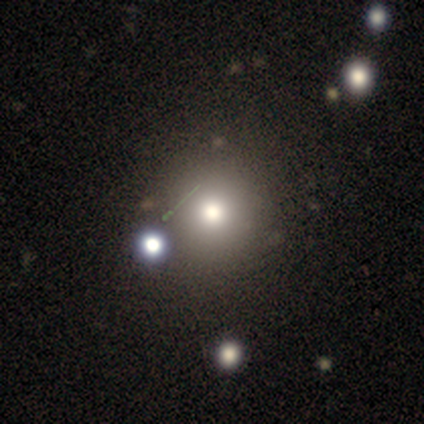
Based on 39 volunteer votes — This is likely a smooth galaxy (69%). How rounded: clearly round (96%). Merging: likely none (68%).